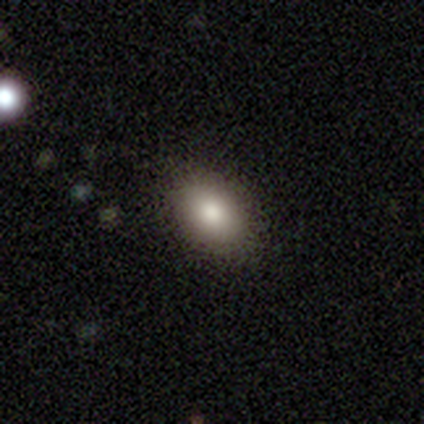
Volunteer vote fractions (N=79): smooth_or_featured: smooth (p=0.86) [alt: star or artifact p=0.09]
how_rounded: in between (p=0.79) [alt: round p=0.19]
merging: none (p=0.56) [alt: minor disturbance p=0.03]